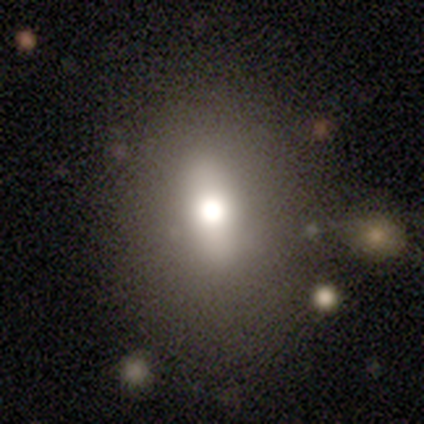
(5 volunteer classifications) This appears to be a smooth galaxy with no disk features (80%) that is in between round and cigar-shaped (50%). Merging: none (80%).